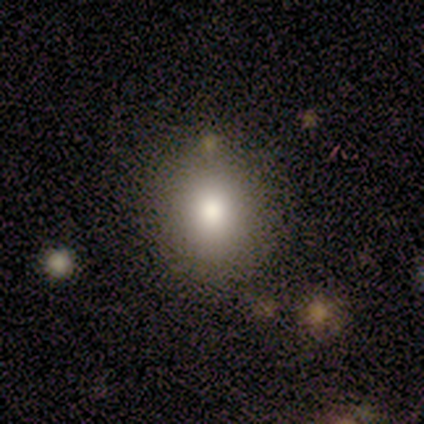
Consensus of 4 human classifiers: This appears to be a smooth galaxy with no disk features (100%) that is round (75%). Merging: none (100%).